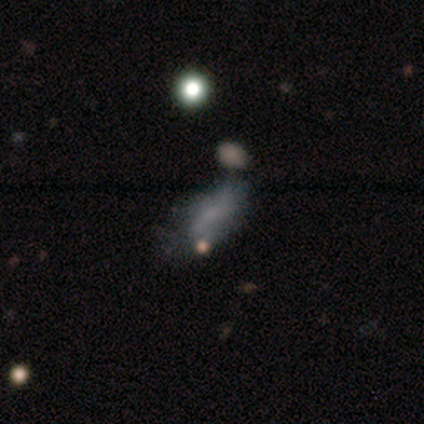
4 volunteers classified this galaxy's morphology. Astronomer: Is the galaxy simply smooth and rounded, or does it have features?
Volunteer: featured or disk — 50%.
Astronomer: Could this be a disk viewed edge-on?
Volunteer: no — 100%.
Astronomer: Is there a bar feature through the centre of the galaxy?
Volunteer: no — 100%.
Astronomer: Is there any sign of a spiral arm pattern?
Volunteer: yes — 50%, tied with no at 50%.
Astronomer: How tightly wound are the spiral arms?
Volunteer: loose — 100%.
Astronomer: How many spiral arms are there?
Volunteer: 2 — 100%.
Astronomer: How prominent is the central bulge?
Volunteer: none — 100%.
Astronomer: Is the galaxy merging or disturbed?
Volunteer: none — 33%, tied with minor disturbance and major disturbance at 33%.